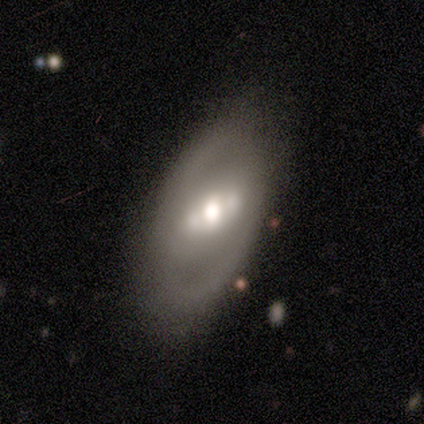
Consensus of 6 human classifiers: smooth_or_featured: featured or disk (p=0.83) [alt: smooth p=0.17]
disk_edge_on: no (p=1.00)
bar: weak (p=0.60) [alt: strong p=0.20]
has_spiral_arms: yes (p=1.00)
spiral_winding: medium (p=0.60) [alt: loose p=0.40]
spiral_arm_count: 2 (p=0.80) [alt: 1 p=0.20]
bulge_size: moderate (p=0.60) [alt: large p=0.20]
merging: none (p=0.67) [alt: minor disturbance p=0.33]